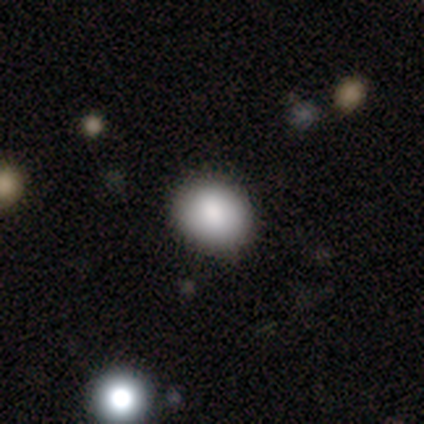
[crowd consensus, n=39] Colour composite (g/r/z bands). It shows a smooth galaxy with no disk features (87%) that is round (76%). Merging: none (87%).